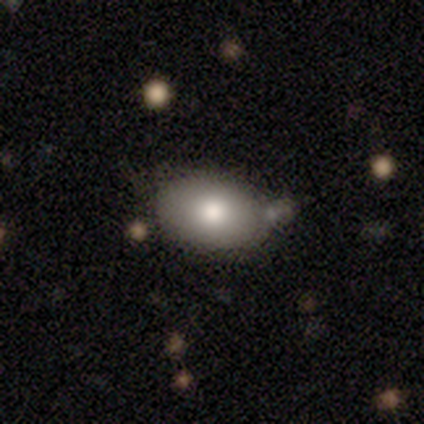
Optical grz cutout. It shows a smooth galaxy with no disk features (60%) that is in between round and cigar-shaped (100%). Merging: none (60%).